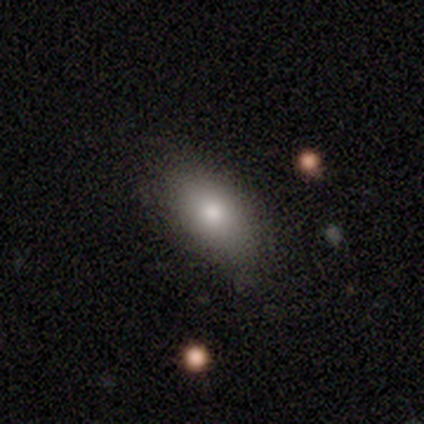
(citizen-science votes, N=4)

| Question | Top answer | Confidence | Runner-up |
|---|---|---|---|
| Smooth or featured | smooth | 100% | — |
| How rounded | in between | 75% | round (25%) |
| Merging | none | 100% | — |